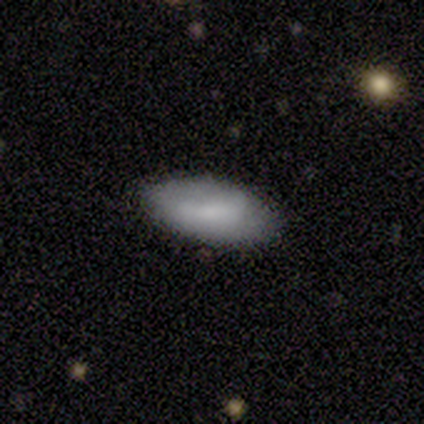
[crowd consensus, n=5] smooth 60%, featured or disk 40%, star or artifact 0%. Down the decision tree: how rounded — in between (100%); merging — none (80%).